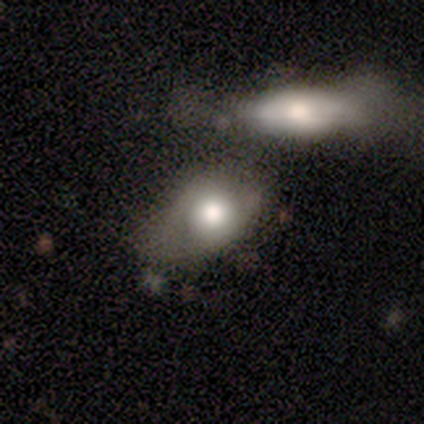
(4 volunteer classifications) Smooth or featured: smooth — 50% (featured or disk — 25%)
How rounded: in between — 100%
Merging: none — 33% (tied with minor disturbance — 33%; merger — 33%)